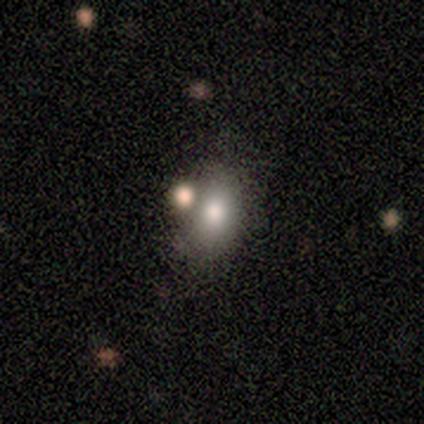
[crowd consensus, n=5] Smooth or featured? 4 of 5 (80%) said smooth. How rounded? 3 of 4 (75%) said in between. Merging? 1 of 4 (25%, tied with minor disturbance, major disturbance and merger) said none.